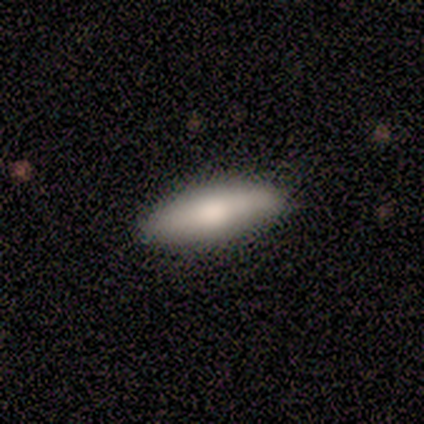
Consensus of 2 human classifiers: Smooth or featured?
  - smooth: 100% *
  - featured or disk: 0%
  - star or artifact: 0%
How rounded?
  - in between: 100% *
  - round: 0%
  - cigar-shaped: 0%
Merging?
  - none: 100% *
  - minor disturbance: 0%
  - major disturbance: 0%
  - merger: 0%